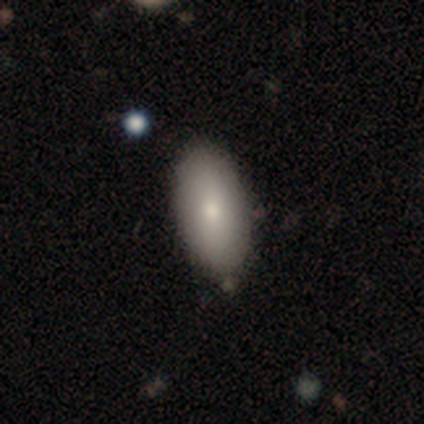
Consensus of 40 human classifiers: Q: Smooth or featured?
A: smooth (95%); runner-up: featured or disk (5%)
Q: How rounded?
A: in between (97%); runner-up: cigar-shaped (3%)
Q: Merging?
A: none (50%); runner-up: merger (10%)